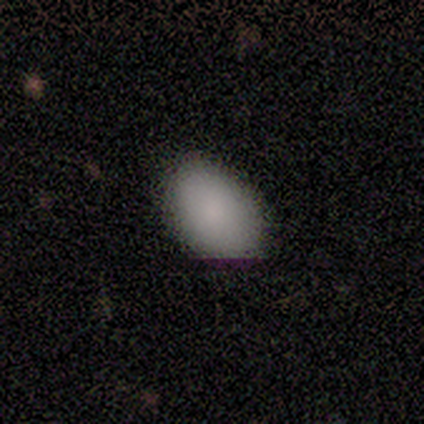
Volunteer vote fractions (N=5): Q: Smooth or featured?
A: smooth (100%)
Q: How rounded?
A: in between (80%); runner-up: round (20%)
Q: Merging?
A: none (60%); runner-up: minor disturbance (40%)